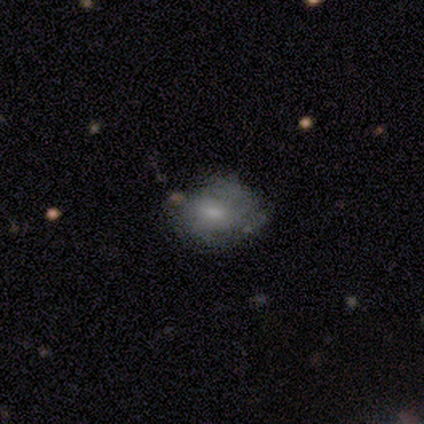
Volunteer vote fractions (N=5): A featured or disk galaxy (100%) with no bar (100%), 2 (67%) medium (100%) spiral arms (60%) and a moderate central bulge (60%).

Vote fractions:
- Smooth or featured? featured or disk: 100% / smooth: 0% / star or artifact: 0%
- Edge-on disk? no: 100% / yes: 0%
- Bar? no: 100% / strong: 0% / weak: 0%
- Spiral arms? yes: 60% / no: 40%
- Spiral winding? medium: 100% / tight: 0% / loose: 0%
- Spiral arm count? 2: 67% / can't tell: 33% / 1: 0% / 3: 0% / 4: 0% / more than 4: 0%
- Bulge size? moderate: 60% / large: 20% / small: 20% / dominant: 0% / none: 0%
- Merging? none: 60% / major disturbance: 40% / minor disturbance: 0% / merger: 0%